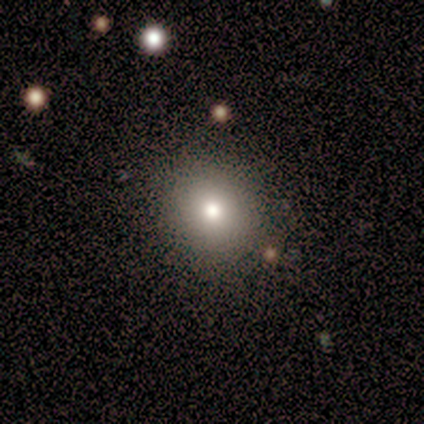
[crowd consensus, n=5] This is clearly a smooth galaxy (100%). How rounded: clearly round (100%). Merging: clearly none (100%).